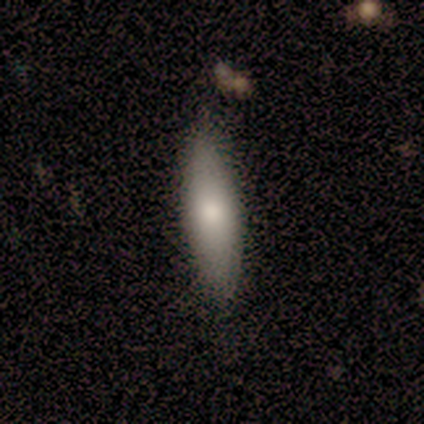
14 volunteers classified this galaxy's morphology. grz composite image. It shows a smooth galaxy with no disk features (71%) that is cigar-shaped (70%). Merging: none (86%).